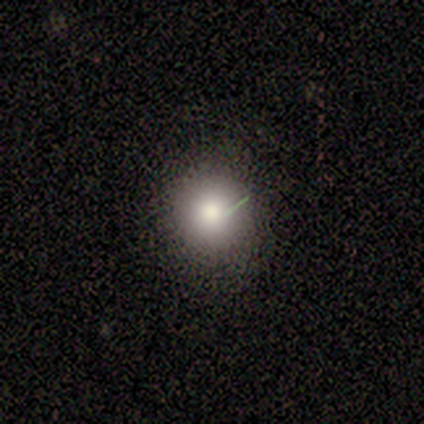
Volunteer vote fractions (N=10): smooth 100%, featured or disk 0%, star or artifact 0%. Down the decision tree: how rounded — round (80%); merging — none (100%).